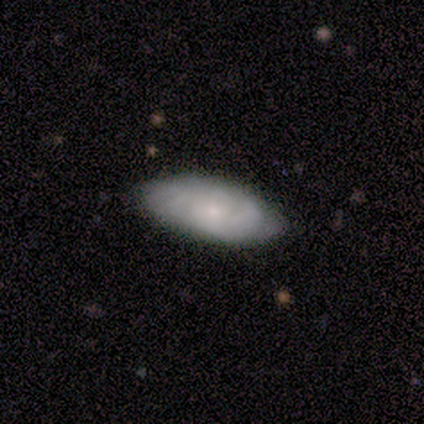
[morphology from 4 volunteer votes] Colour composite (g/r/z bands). It shows a smooth galaxy with no disk features (50%, tied with featured or disk) that is in between round and cigar-shaped (100%). Merging: none (100%).